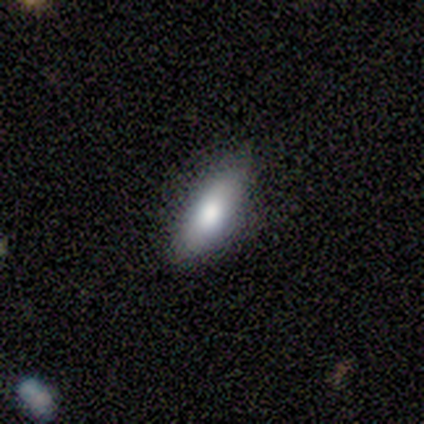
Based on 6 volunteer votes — smooth-or-featured: smooth: 83% | featured or disk: 17% | star or artifact: 0%
  how-rounded: cigar-shaped: 60% | in between: 40% | round: 0%
  merging: none: 50% (tied) | minor disturbance: 50% (tied) | major disturbance: 0% | merger: 0%